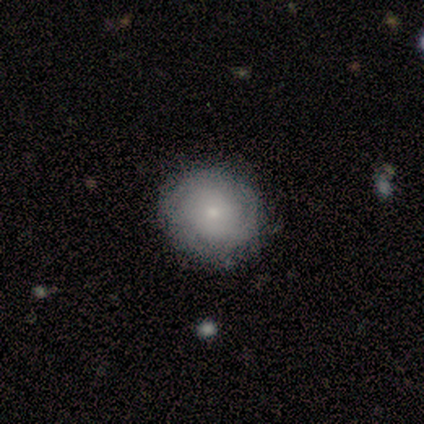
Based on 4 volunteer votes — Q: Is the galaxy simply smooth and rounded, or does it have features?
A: smooth — 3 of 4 (75%).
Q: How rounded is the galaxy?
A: round — 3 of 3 (100%).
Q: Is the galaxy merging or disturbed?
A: none — 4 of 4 (100%).